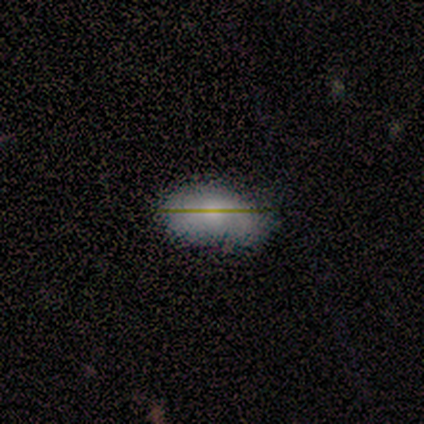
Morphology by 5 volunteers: smooth 100%, featured or disk 0%, star or artifact 0%. Down the decision tree: how rounded — in between (100%); merging — none (60%).